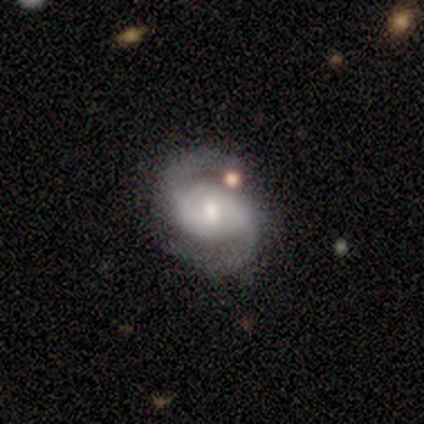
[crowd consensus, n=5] Smooth or featured?
  - featured or disk: 100% *
  - smooth: 0%
  - star or artifact: 0%
Edge-on disk?
  - no: 80% *
  - yes: 20%
Bar?
  - weak: 75% *
  - no: 25%
  - strong: 0%
Spiral arms?
  - yes: 100% *
  - no: 0%
Spiral winding?
  - tight: 50% * (tied)
  - medium: 50% * (tied)
  - loose: 0%
Spiral arm count?
  - 2: 75% *
  - can't tell: 25%
  - 1: 0%
  - 3: 0%
  - 4: 0%
  - more than 4: 0%
Bulge size?
  - small: 100% *
  - dominant: 0%
  - large: 0%
  - moderate: 0%
  - none: 0%
Merging?
  - none: 80% *
  - merger: 20%
  - minor disturbance: 0%
  - major disturbance: 0%